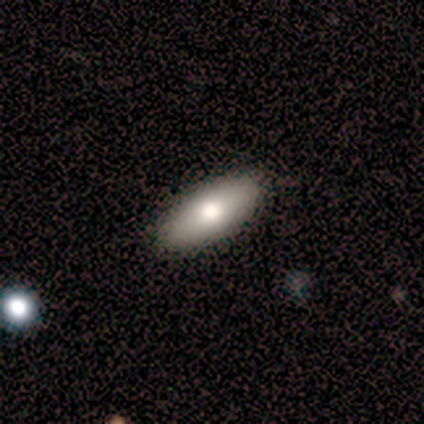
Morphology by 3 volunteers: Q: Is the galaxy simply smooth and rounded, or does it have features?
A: featured or disk — 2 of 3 (67%).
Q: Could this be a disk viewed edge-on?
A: yes — 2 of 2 (100%).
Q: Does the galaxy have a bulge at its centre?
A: rounded — 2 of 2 (100%).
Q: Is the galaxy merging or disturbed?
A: none — 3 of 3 (100%).